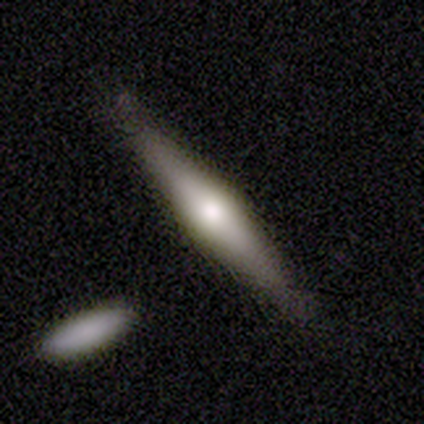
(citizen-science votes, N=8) smooth 50% (tied), featured or disk 50% (tied), star or artifact 0%. Down the decision tree: how rounded — cigar-shaped (100%); merging — none (62%).